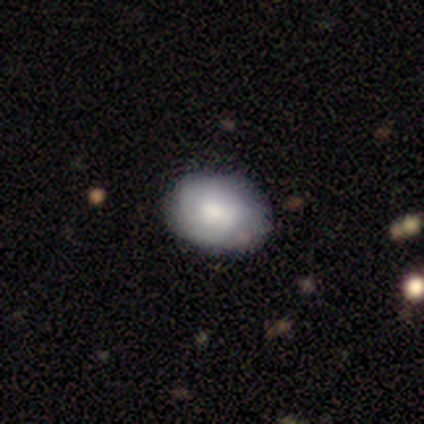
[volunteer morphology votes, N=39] Q: Smooth or featured?
A: smooth (64%); runner-up: featured or disk (31%)
Q: How rounded?
A: in between (84%); runner-up: round (16%)
Q: Merging?
A: none (84%); runner-up: minor disturbance (8%)